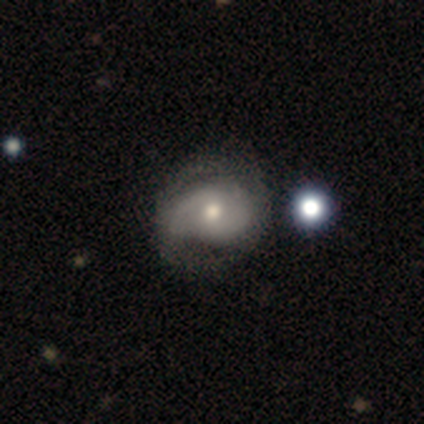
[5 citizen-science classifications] featured or disk 100%, smooth 0%, star or artifact 0%. Down the decision tree: edge-on disk — no (100%); bar — no (60%); spiral arms — yes (100%); spiral arm count — 2 (80%); spiral winding — medium (40%, tied with loose); bulge size — large (60%); merging — none (80%).